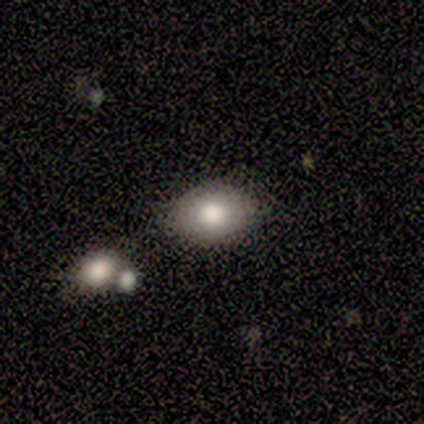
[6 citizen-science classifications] smooth-or-featured: smooth: 100% | featured or disk: 0% | star or artifact: 0%
  how-rounded: in between: 83% | round: 17% | cigar-shaped: 0%
  merging: none: 83% | minor disturbance: 17% | major disturbance: 0% | merger: 0%